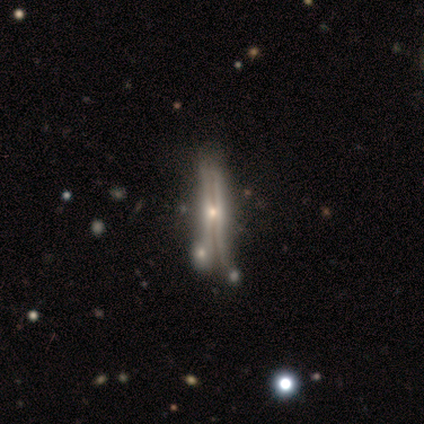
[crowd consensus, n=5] featured or disk 40% (tied), star or artifact 40% (tied), smooth 20%. Down the decision tree: edge-on disk — yes (100%); edge-on bulge — boxy (50%, tied with rounded); merging — none (33%, tied with minor disturbance and merger).